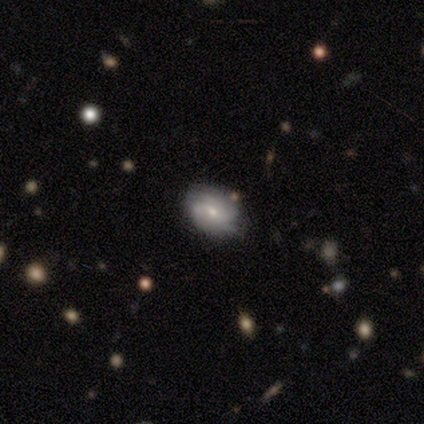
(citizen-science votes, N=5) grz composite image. It shows a featured or disk galaxy (60%) with no bar (67%), tight (33%, tied with medium and loose) spiral arms (100%) and a small central bulge (67%). Merging: none (50%, tied with minor disturbance).